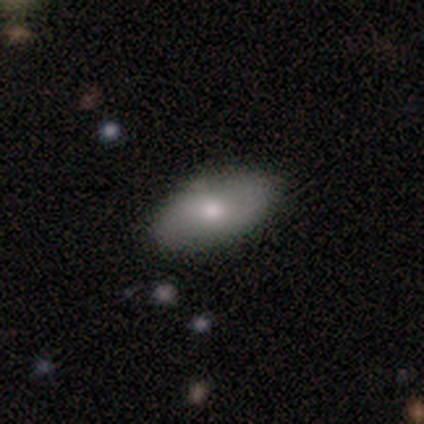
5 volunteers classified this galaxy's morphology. Smooth or featured?
  - smooth: 100% *
  - featured or disk: 0%
  - star or artifact: 0%
How rounded?
  - in between: 100% *
  - round: 0%
  - cigar-shaped: 0%
Merging?
  - none: 80% *
  - minor disturbance: 20%
  - major disturbance: 0%
  - merger: 0%